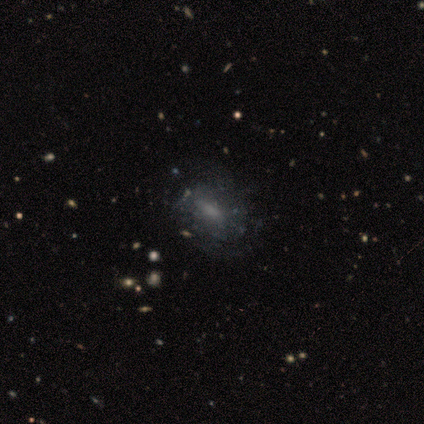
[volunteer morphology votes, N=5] smooth_or_featured: smooth (p=0.60) [alt: featured or disk p=0.20]
how_rounded: in between (p=1.00)
merging: minor disturbance (p=0.50) [alt: none p=0.25]